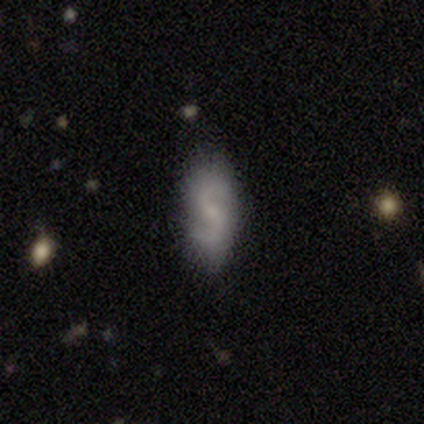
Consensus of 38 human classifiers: Overall: featured or disk (79%). Edge-on disk: no (100%). Bar: weak (63%; no 37%). Spiral arms: yes (93%). Spiral arm count: 2 (100%). Spiral winding: loose (50%; medium 43%). Bulge size: small (63%; none 27%). Merging: none (79%).